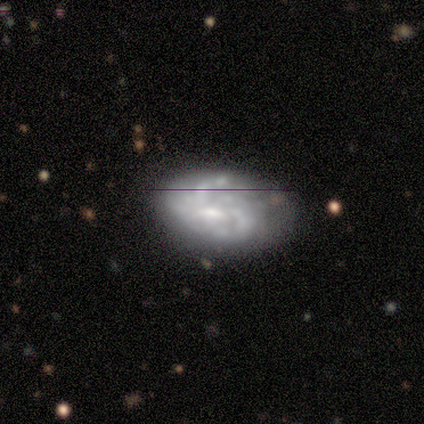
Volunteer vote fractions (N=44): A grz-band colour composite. It shows a featured or disk galaxy (82%) with a weak bar (44%), 2 (44%) medium (44%) spiral arms (69%) and a small central bulge (47%). Merging: none (54%).